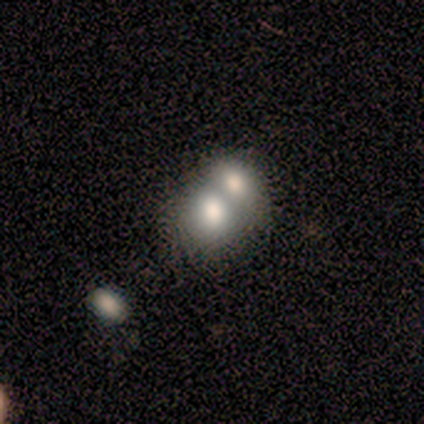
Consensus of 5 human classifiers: A smooth galaxy with no disk features (60%) that is in between round and cigar-shaped (100%).

Vote fractions:
- Smooth or featured? smooth: 60% / featured or disk: 20% / star or artifact: 20%
- How rounded? in between: 100% / round: 0% / cigar-shaped: 0%
- Merging? merger: 100% / none: 0% / minor disturbance: 0% / major disturbance: 0%